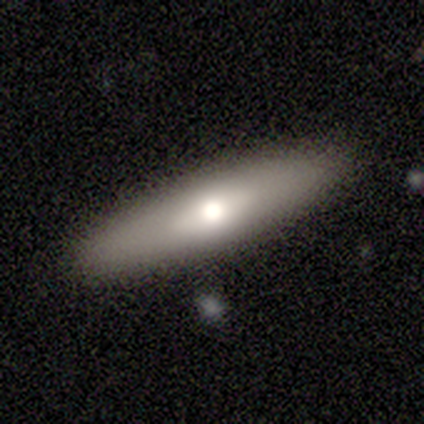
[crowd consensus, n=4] Volunteers were most divided on "how rounded": in between: 67%, cigar-shaped: 33%, round: 0%. More confident: merging — none (100%); smooth or featured — smooth (75%).